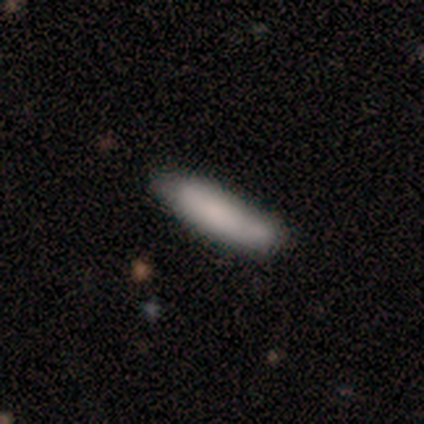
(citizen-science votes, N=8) Smooth or featured?
  - smooth: 100% *
  - featured or disk: 0%
  - star or artifact: 0%
How rounded?
  - cigar-shaped: 62% *
  - in between: 38%
  - round: 0%
Merging?
  - none: 88% *
  - major disturbance: 12%
  - minor disturbance: 0%
  - merger: 0%